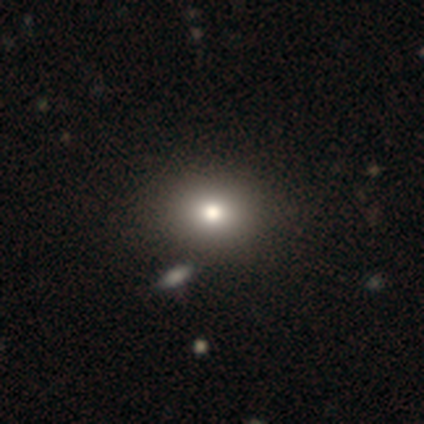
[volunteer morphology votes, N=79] Smooth or featured?
  - smooth: 80% *
  - star or artifact: 18%
  - featured or disk: 3%
How rounded?
  - round: 54% *
  - in between: 46%
  - cigar-shaped: 0%
Merging?
  - none: 45% *
  - merger: 9%
  - minor disturbance: 3%
  - major disturbance: 3%